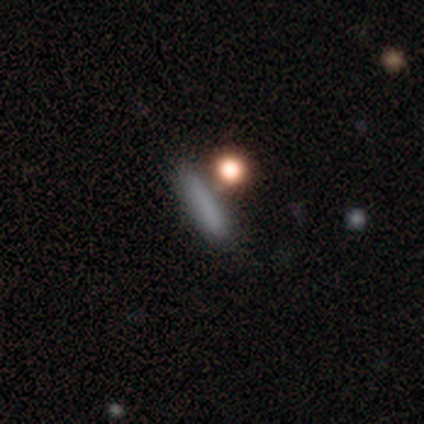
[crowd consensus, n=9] Q: Smooth or featured?
A: smooth (89%); runner-up: star or artifact (11%)
Q: How rounded?
A: cigar-shaped (100%)
Q: Merging?
A: none (50%); runner-up: merger (38%)